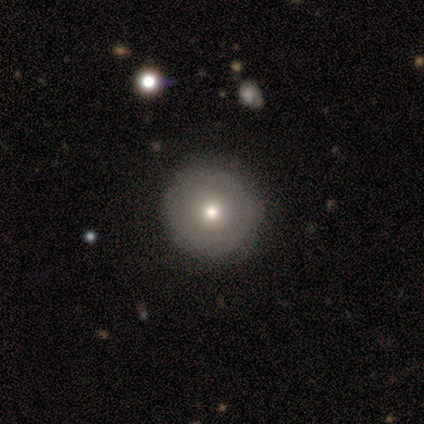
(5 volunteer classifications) This appears to be a smooth galaxy with no disk features (60%) that is round (100%). Merging: none (100%).